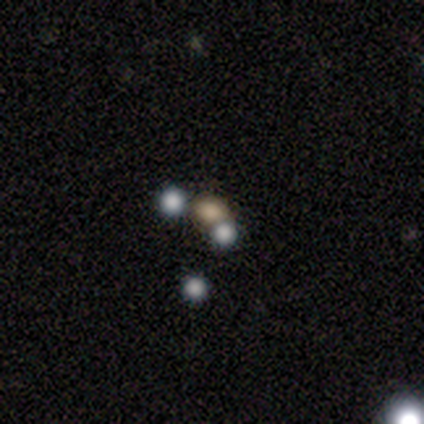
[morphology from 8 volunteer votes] A smooth galaxy with no disk features (50%) that is round (75%). Merging: none (50%, tied with merger).